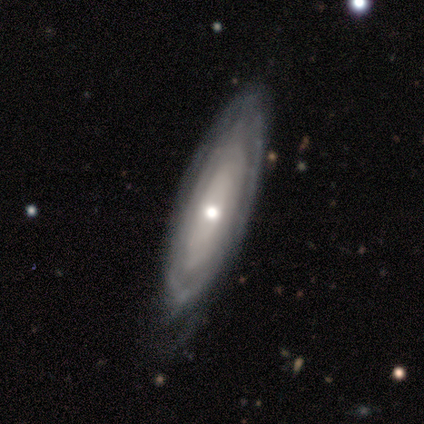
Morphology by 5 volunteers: Smooth or featured? 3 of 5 (60%) said featured or disk. Edge-on disk? 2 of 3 (67%) said no. Bar? 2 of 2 (100%) said no. Spiral arms? 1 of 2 (50%, tied with no) said yes. Spiral winding? 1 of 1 (100%) said tight. Spiral arm count? 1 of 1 (100%) said can't tell. Bulge size? 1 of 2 (50%, tied with small) said moderate. Merging? 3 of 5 (60%) said minor disturbance.